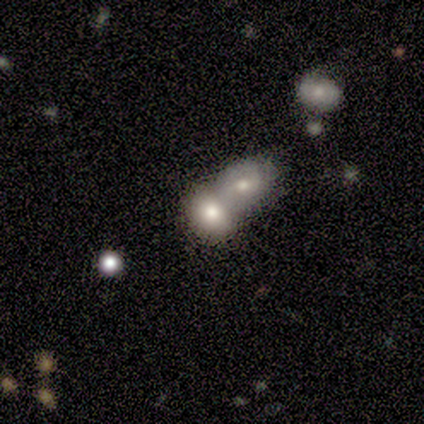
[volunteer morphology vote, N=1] A smooth galaxy with no disk features (100%) that is cigar-shaped (100%).

Vote fractions:
- Smooth or featured? smooth: 100% / featured or disk: 0% / star or artifact: 0%
- How rounded? cigar-shaped: 100% / round: 0% / in between: 0%
- Merging? merger: 100% / none: 0% / minor disturbance: 0% / major disturbance: 0%